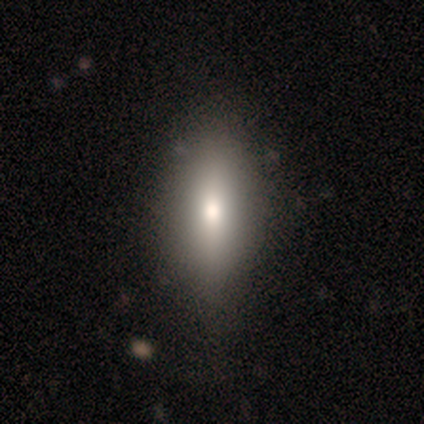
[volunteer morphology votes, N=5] smooth_or_featured: featured or disk (p=0.60) [alt: smooth p=0.40]
disk_edge_on: yes (p=1.00)
edge_on_bulge: rounded (p=1.00)
merging: none (p=0.80) [alt: minor disturbance p=0.20]